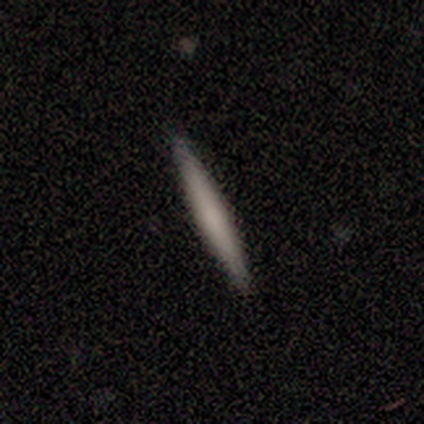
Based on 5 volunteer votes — A smooth galaxy with no disk features (80%) that is cigar-shaped (100%).

Vote fractions:
- Smooth or featured? smooth: 80% / featured or disk: 20% / star or artifact: 0%
- How rounded? cigar-shaped: 100% / round: 0% / in between: 0%
- Merging? none: 100% / minor disturbance: 0% / major disturbance: 0% / merger: 0%